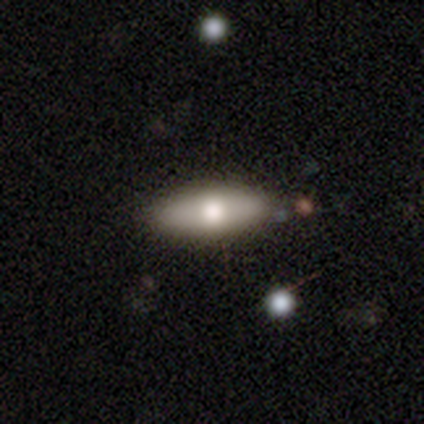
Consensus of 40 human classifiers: A smooth galaxy with no disk features (68%) that is in between round and cigar-shaped (67%). Merging: none (95%).